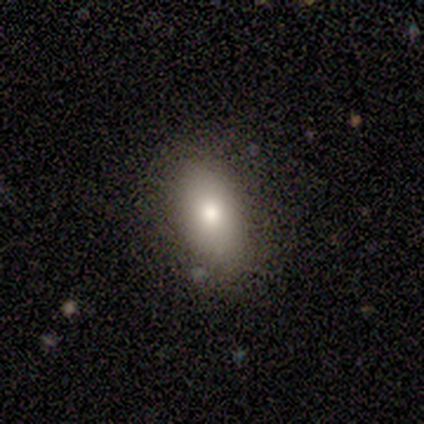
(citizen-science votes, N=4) This is likely a smooth galaxy (75%). How rounded: clearly in between (100%). Merging: likely none (67%).